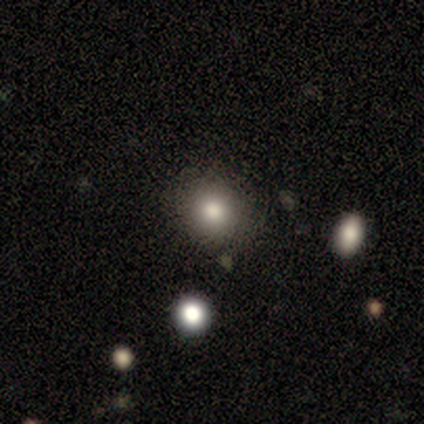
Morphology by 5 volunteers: smooth_or_featured: smooth (p=1.00)
how_rounded: round (p=1.00)
merging: none (p=1.00)